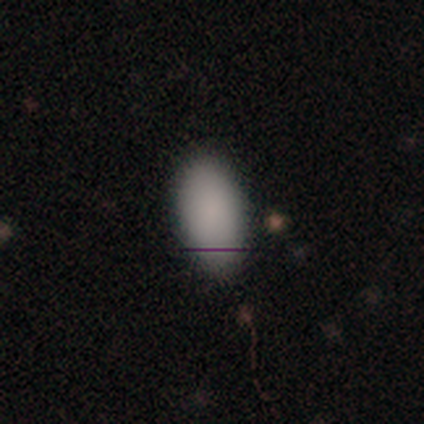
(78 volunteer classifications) smooth_or_featured: smooth (p=0.90) [alt: featured or disk p=0.05]
how_rounded: in between (p=0.99) [alt: round p=0.01]
merging: none (p=0.35) [alt: minor disturbance p=0.16]